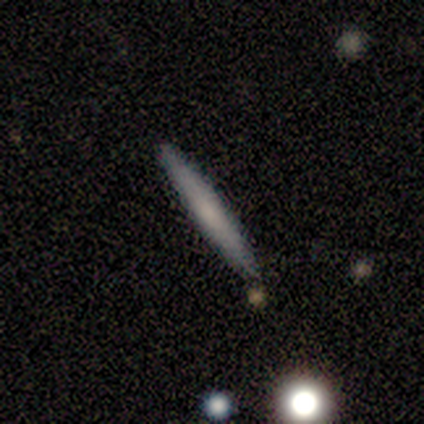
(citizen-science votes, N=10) This is clearly a smooth galaxy (80%). How rounded: clearly cigar-shaped (100%). Merging: clearly none (80%).